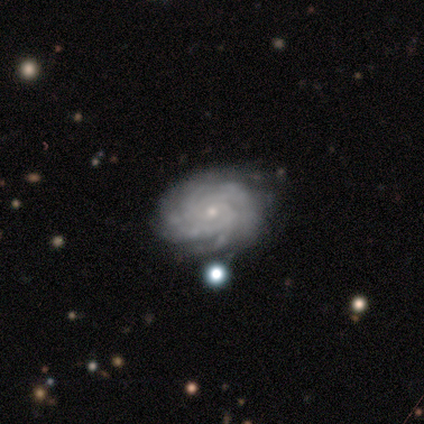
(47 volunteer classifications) Morphology: type=featured or disk (83%); edge-on=no (100%); bar=no (82%); spiral arms=yes (97%); winding=tight (87%); arm count=more than 4 (42%); bulge=small (90%); merging=none (80%).